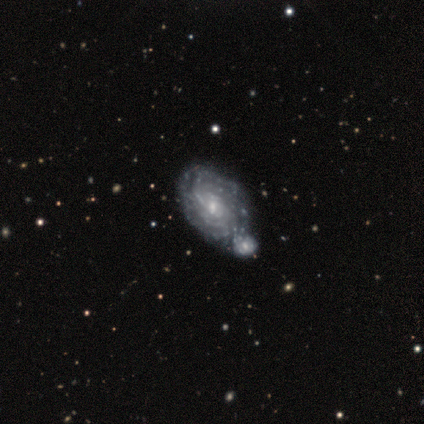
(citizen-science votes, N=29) This appears to be a featured or disk galaxy (83%) with no bar (62%), tight (76%) spiral arms (88%) and a small central bulge (75%). Merging: merger (70%).